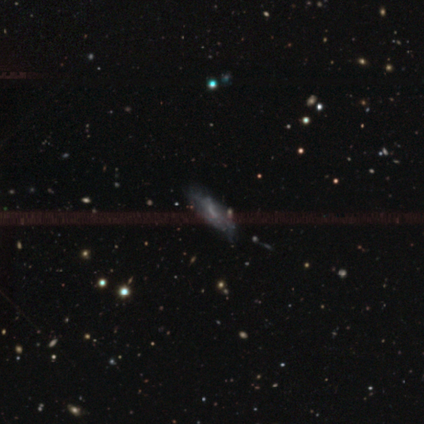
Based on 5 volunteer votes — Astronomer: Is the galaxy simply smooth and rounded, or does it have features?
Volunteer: featured or disk — 80%.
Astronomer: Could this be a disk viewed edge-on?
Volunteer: no — 100%.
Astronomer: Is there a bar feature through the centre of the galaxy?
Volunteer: weak — 50%.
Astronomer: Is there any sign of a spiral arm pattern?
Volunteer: yes — 50%, tied with no at 50%.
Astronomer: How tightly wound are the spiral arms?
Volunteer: tight — 50%, tied with medium at 50%.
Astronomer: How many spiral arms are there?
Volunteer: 2 — 50%, tied with can't tell at 50%.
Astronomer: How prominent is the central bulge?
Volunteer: moderate — 50%, tied with small at 50%.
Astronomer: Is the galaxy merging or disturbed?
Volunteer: minor disturbance — 60% (runner-up: none, 40%).